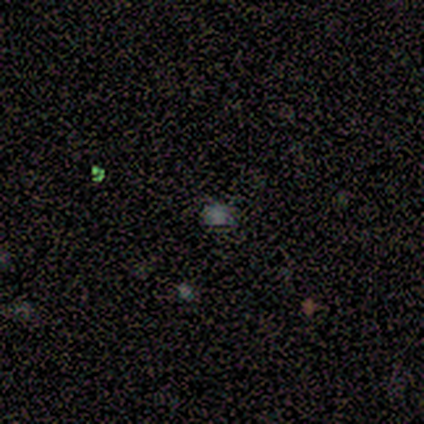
Smooth or featured: featured or disk — 50% (smooth — 25%)
Edge-on disk: no — 100%
Bar: no — 100%
Spiral arms: no — 100%
Bulge size: none — 100%
Merging: none — 100%